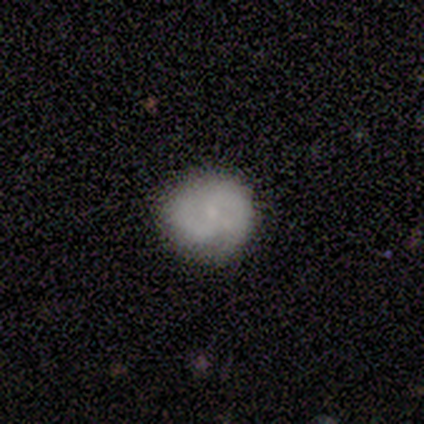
Morphology: type=smooth (60%); roundness=round (100%); merging=none (60%).